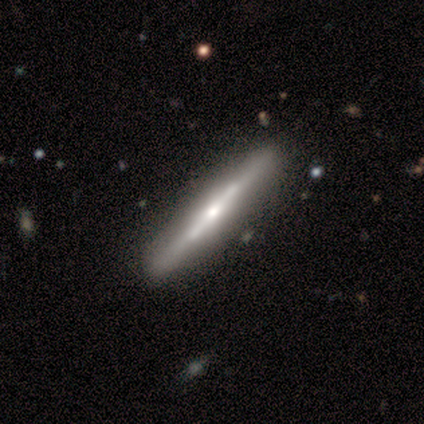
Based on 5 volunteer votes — featured or disk 80%, smooth 20%, star or artifact 0%. Down the decision tree: edge-on disk — yes (75%); edge-on bulge — rounded (67%); merging — none (60%).